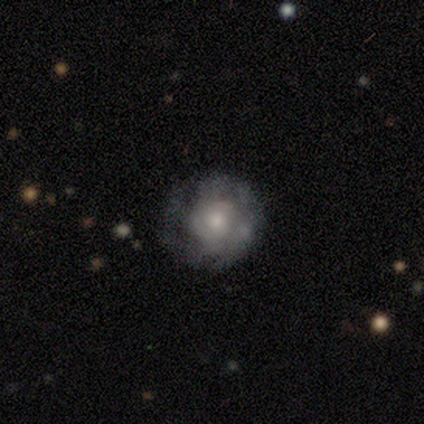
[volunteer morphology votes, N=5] Smooth or featured: featured or disk — 80% (smooth — 20%)
Edge-on disk: no — 100%
Bar: no — 100%
Spiral arms: yes — 100%
Spiral winding: tight — 75% (medium — 25%)
Spiral arm count: can't tell — 50% (2 — 25%)
Bulge size: moderate — 50% (small — 25%)
Merging: none — 80% (major disturbance — 20%)